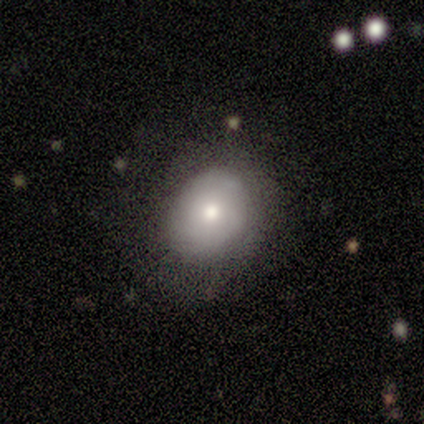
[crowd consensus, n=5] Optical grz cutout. It shows a smooth galaxy with no disk features (80%) that is round (50%, tied with in between). Merging: none (40%, tied with major disturbance).